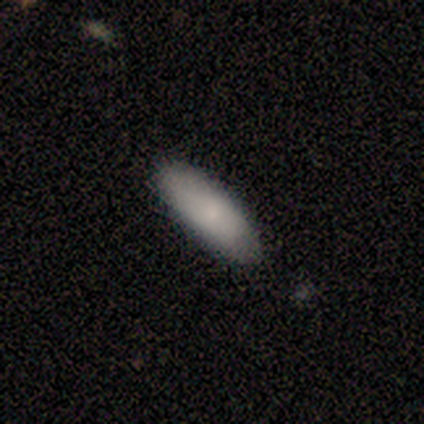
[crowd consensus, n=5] Smooth or featured?
  - smooth: 100% *
  - featured or disk: 0%
  - star or artifact: 0%
How rounded?
  - in between: 60% *
  - cigar-shaped: 40%
  - round: 0%
Merging?
  - none: 100% *
  - minor disturbance: 0%
  - major disturbance: 0%
  - merger: 0%